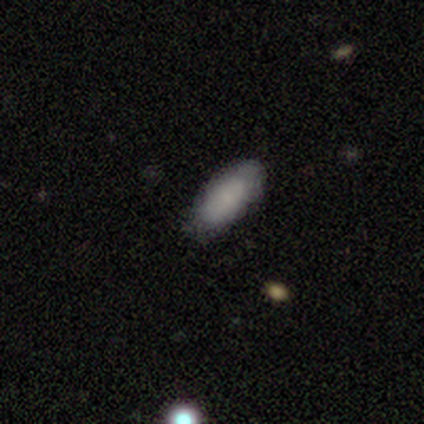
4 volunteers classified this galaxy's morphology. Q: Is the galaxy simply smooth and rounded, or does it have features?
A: smooth — 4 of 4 (100%).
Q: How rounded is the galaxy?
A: in between — 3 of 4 (75%).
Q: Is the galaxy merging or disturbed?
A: none — 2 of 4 (50%, tied with minor disturbance).